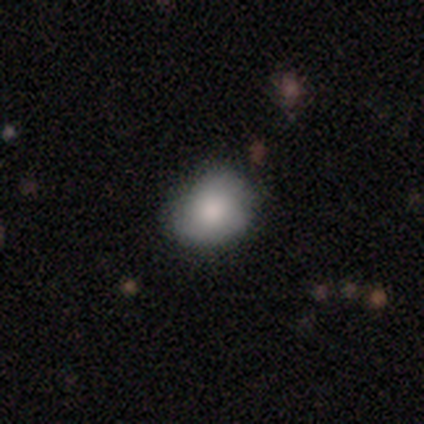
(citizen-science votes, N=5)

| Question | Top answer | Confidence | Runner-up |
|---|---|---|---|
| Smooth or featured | smooth | 80% | featured or disk (20%) |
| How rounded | round | 75% | in between (25%) |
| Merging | none | 100% | — |